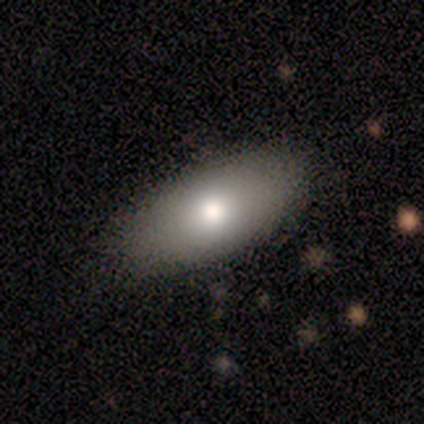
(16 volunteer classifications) Smooth or featured: smooth — 56% (featured or disk — 31%)
How rounded: in between — 100%
Merging: none — 100%